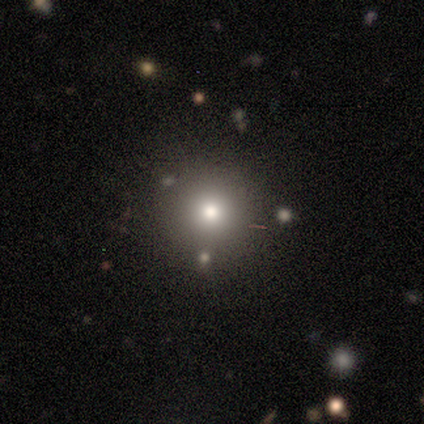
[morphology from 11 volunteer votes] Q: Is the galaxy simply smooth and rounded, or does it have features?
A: smooth — 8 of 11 (73%).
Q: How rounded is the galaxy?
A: round — 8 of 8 (100%).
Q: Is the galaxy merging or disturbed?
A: none — 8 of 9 (89%).